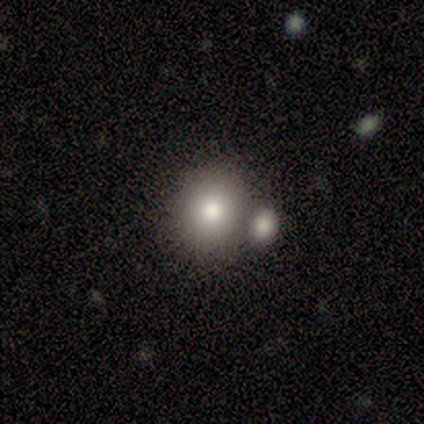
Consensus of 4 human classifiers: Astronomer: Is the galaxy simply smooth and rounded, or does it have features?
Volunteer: smooth — 100%.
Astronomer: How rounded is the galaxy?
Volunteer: round — 100%.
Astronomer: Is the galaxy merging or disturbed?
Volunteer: none — 50%.